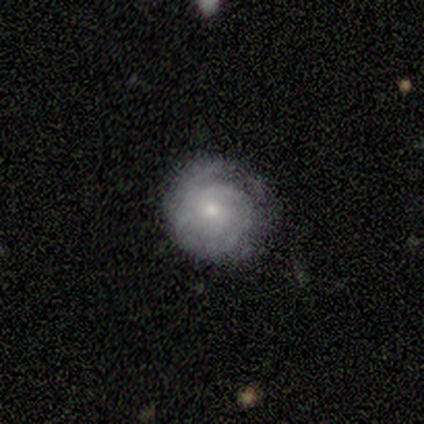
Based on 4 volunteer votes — Overall: smooth (50%, tied with featured or disk). How rounded: round (100%). Merging: none (100%).